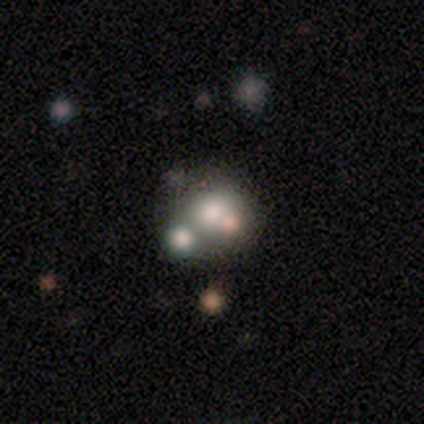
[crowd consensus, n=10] smooth-or-featured: featured or disk: 50% | smooth: 30% | star or artifact: 20%
  disk-edge-on: no: 100% | yes: 0%
    bar: no: 80% | strong: 20% | weak: 0%
    has-spiral-arms: no: 100% | yes: 0%
    bulge-size: moderate: 60% | large: 20% | small: 20% | dominant: 0% | none: 0%
  merging: merger: 50% | major disturbance: 25% | none: 12% | minor disturbance: 12%